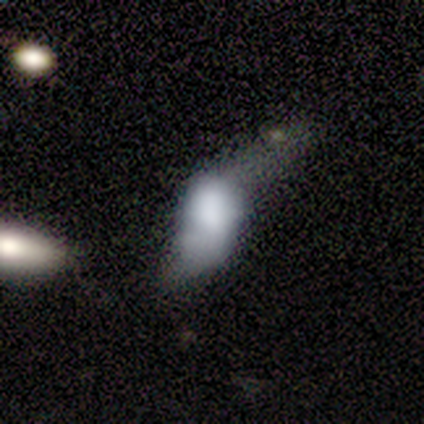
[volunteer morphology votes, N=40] Overall: smooth (52%; featured or disk 40%). How rounded: in between (81%). Merging: major disturbance (78%).